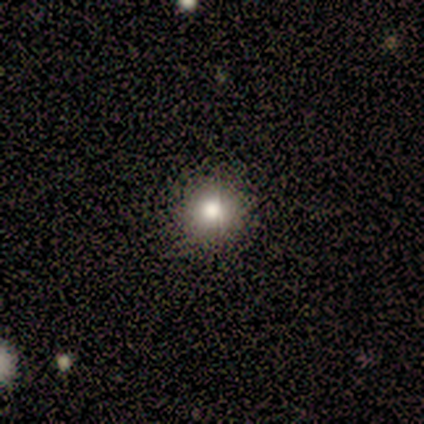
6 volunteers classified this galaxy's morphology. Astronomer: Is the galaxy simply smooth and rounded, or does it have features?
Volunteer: smooth — 83%.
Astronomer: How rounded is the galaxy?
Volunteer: round — 100%.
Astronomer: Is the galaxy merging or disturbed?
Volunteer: none — 60% (runner-up: minor disturbance, 40%).